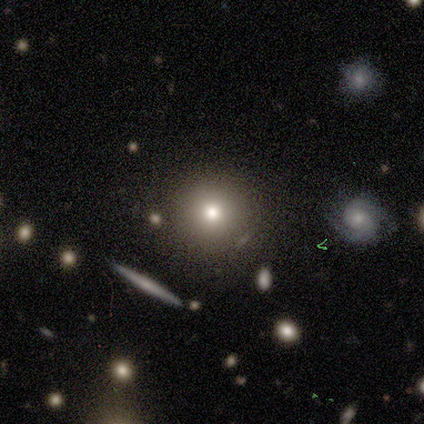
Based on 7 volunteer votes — smooth_or_featured: smooth (p=0.57) [alt: featured or disk p=0.29]
how_rounded: round (p=1.00)
merging: none (p=0.67) [alt: minor disturbance p=0.17]